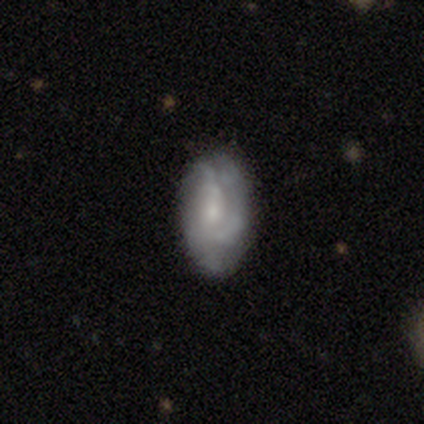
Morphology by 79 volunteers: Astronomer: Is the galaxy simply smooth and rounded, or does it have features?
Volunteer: featured or disk — 65%.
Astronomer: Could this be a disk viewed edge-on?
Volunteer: no — 100%.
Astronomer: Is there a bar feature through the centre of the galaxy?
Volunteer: no — 73%.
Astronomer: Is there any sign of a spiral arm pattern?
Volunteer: yes — 76%.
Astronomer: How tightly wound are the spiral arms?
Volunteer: tight — 46% (runner-up: medium, 41%).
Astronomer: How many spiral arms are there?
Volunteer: can't tell — 44% (runner-up: 3, 31%).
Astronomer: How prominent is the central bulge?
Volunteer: small — 65%.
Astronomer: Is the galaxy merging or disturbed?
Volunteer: none — 34% (runner-up: minor disturbance, 18%).